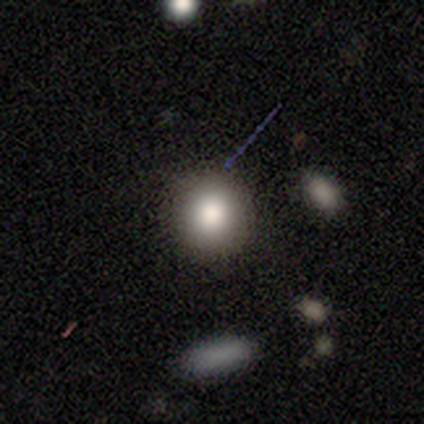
Smooth or featured? smooth (100%)
How rounded? round (80%)
Merging? none (100%)